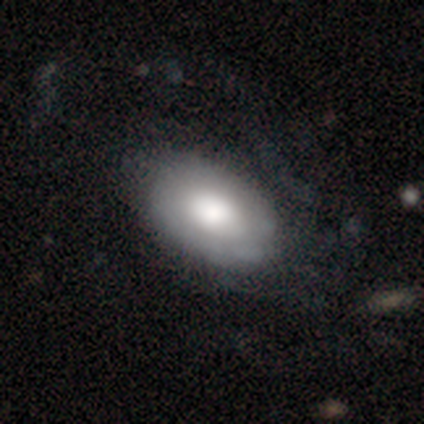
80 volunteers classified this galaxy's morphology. type=smooth (60%); roundness=in between (85%); merging=none (32%).